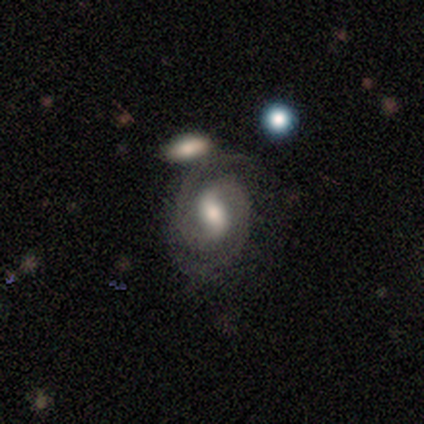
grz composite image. It shows a featured or disk galaxy (100%) with a strong bar (60%), 2 (100%) medium (60%) spiral arms (100%) and a moderate central bulge (100%). Merging: none (80%).